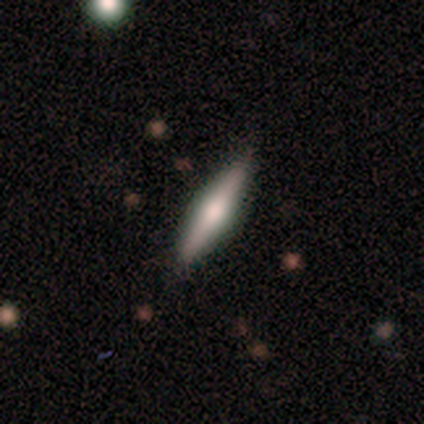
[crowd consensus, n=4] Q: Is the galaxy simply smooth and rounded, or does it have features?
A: featured or disk — 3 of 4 (75%).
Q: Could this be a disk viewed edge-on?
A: yes — 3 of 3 (100%).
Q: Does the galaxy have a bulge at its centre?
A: rounded — 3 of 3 (100%).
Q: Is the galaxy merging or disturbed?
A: none — 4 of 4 (100%).